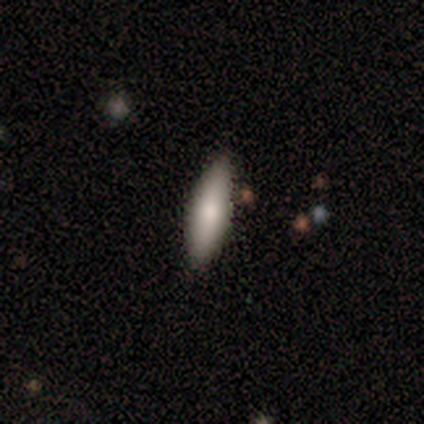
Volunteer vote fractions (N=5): A smooth galaxy with no disk features (60%) that is in between round and cigar-shaped (67%). Merging: none (100%).